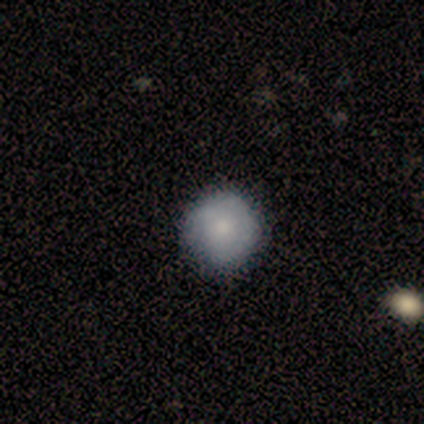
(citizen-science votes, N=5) Overall: smooth (100%). How rounded: round (100%). Merging: none (100%).